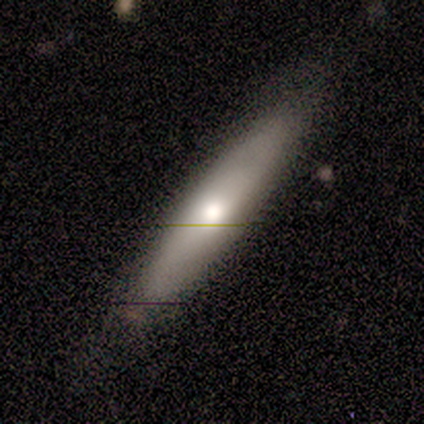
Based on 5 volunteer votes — Smooth or featured?
  - smooth: 80% *
  - featured or disk: 20%
  - star or artifact: 0%
How rounded?
  - cigar-shaped: 75% *
  - in between: 25%
  - round: 0%
Merging?
  - none: 100% *
  - minor disturbance: 0%
  - major disturbance: 0%
  - merger: 0%